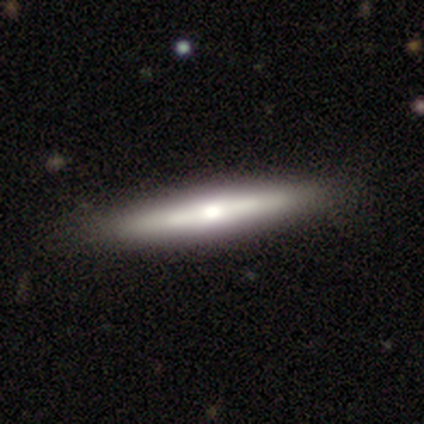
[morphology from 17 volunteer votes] A featured or disk galaxy (59%) viewed edge-on (100%) with a rounded central bulge (70%).

Vote fractions:
- Smooth or featured? featured or disk: 59% / smooth: 41% / star or artifact: 0%
- Edge-on disk? yes: 100% / no: 0%
- Edge-on bulge? rounded: 70% / boxy: 30% / none: 0%
- Merging? none: 88% / minor disturbance: 12% / major disturbance: 0% / merger: 0%